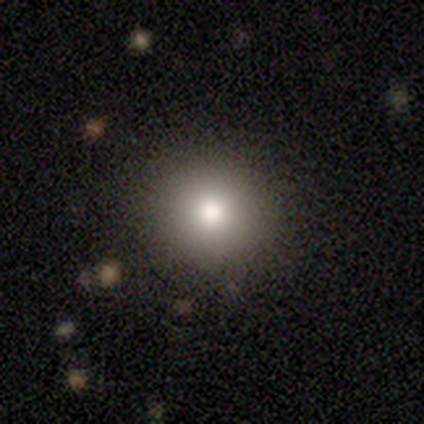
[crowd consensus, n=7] Smooth or featured?
  - star or artifact: 57% *
  - smooth: 43%
  - featured or disk: 0%